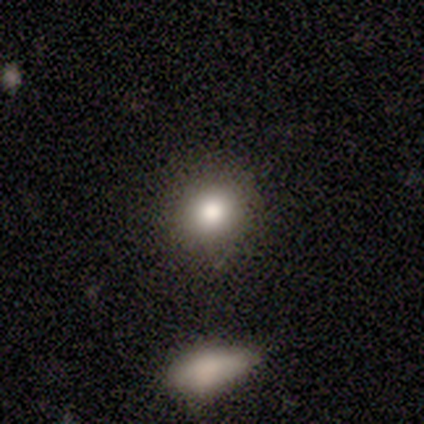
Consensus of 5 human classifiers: Morphology: type=smooth (80%); roundness=round (75%); merging=none (100%).